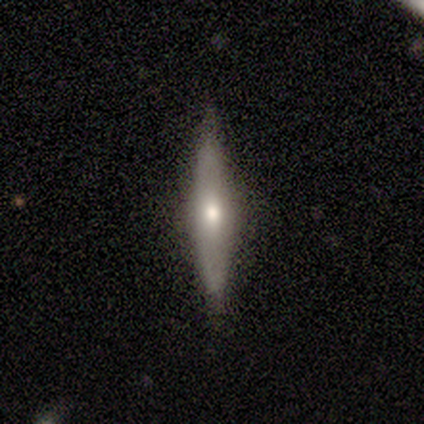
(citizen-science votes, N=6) A featured or disk galaxy (67%) viewed edge-on (100%) with a rounded central bulge (75%). Merging: none (83%).